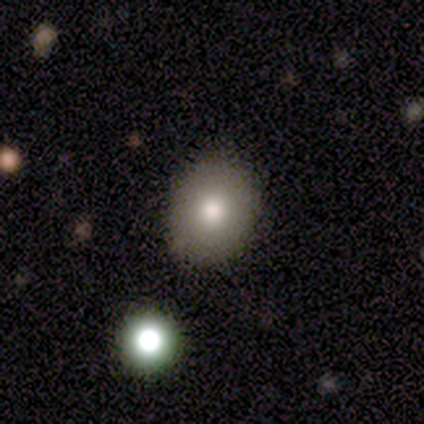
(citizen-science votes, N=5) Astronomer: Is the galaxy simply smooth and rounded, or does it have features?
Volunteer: smooth — 80%.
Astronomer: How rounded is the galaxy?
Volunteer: round — 75%.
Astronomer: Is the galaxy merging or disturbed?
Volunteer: none — 100%.